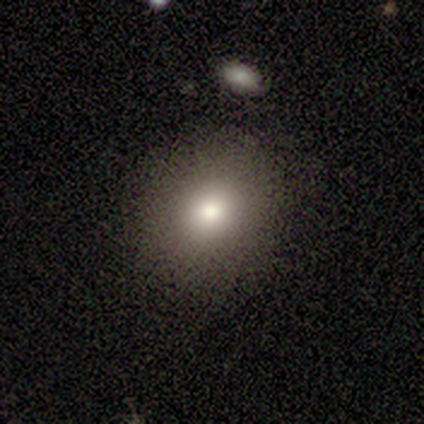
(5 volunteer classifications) Morphology: type=smooth (100%); roundness=round (100%); merging=none (100%).